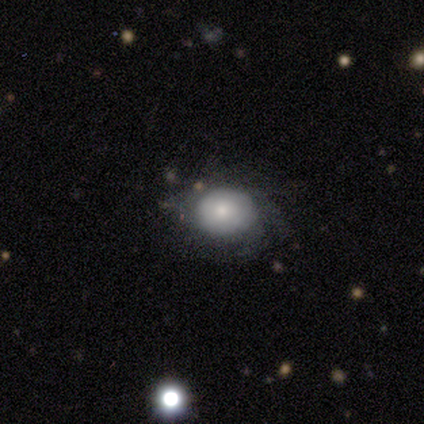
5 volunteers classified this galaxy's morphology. Overall: smooth (80%). How rounded: round (100%). Merging: none (60%; minor disturbance 40%).